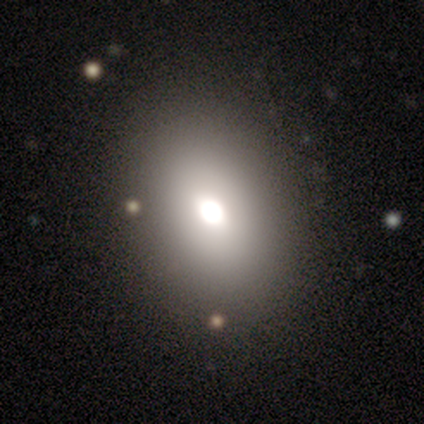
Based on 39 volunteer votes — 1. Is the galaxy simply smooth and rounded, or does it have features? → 67% smooth, 18% featured or disk, 15% star or artifact.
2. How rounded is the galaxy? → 77% in between, 23% round, 0% cigar-shaped.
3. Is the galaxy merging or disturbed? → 94% none, 6% minor disturbance, 0% major disturbance, 0% merger.